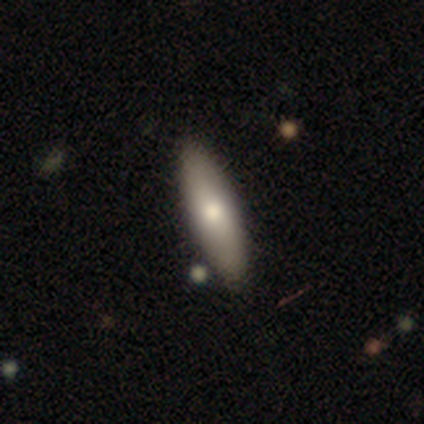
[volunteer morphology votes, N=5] Smooth or featured: smooth — 60% (featured or disk — 40%)
How rounded: cigar-shaped — 67% (in between — 33%)
Merging: none — 100%